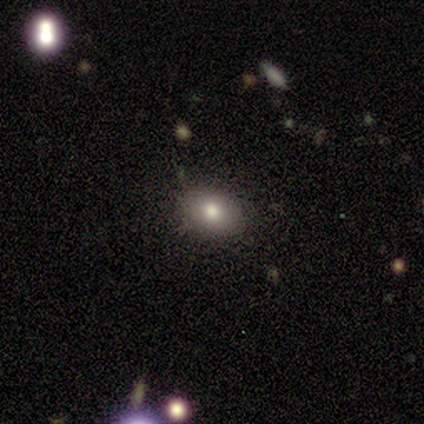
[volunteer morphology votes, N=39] A smooth galaxy with no disk features (62%) that is in between round and cigar-shaped (54%).

Vote fractions:
- Smooth or featured? smooth: 62% / featured or disk: 26% / star or artifact: 13%
- How rounded? in between: 54% / round: 42% / cigar-shaped: 4%
- Merging? none: 79% / minor disturbance: 15% / major disturbance: 3% / merger: 3%